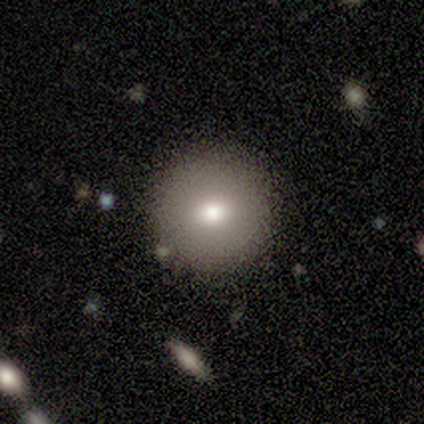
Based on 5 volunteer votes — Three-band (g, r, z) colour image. It shows a smooth galaxy with no disk features (100%) that is round (100%). Merging: none (80%).